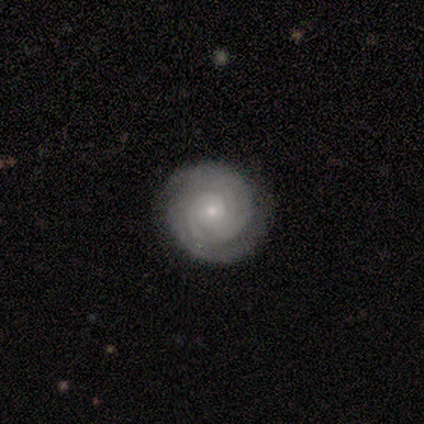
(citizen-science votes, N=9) Smooth or featured: featured or disk — 100%
Edge-on disk: no — 100%
Bar: no — 100%
Spiral arms: yes — 100%
Spiral winding: tight — 89% (medium — 11%)
Spiral arm count: 2 — 56% (3 — 22%)
Bulge size: small — 100%
Merging: none — 78% (minor disturbance — 22%)